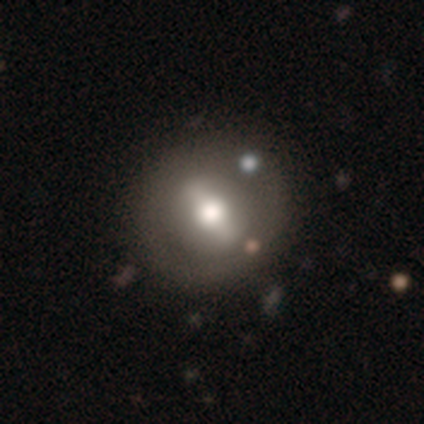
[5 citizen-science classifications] smooth-or-featured: featured or disk: 80% | smooth: 20% | star or artifact: 0%
  disk-edge-on: yes: 50% (tied) | no: 50% (tied)
    edge-on-bulge: rounded: 100% | boxy: 0% | none: 0%
  merging: none: 100% | minor disturbance: 0% | major disturbance: 0% | merger: 0%